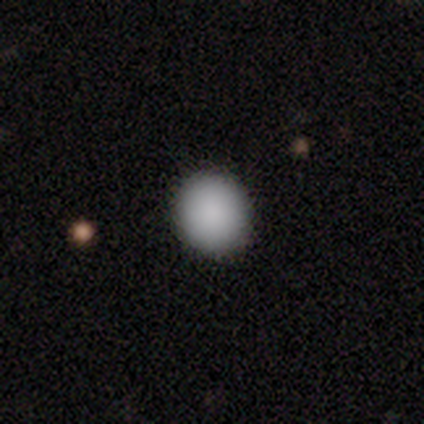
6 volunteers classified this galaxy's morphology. smooth-or-featured: smooth: 100% | featured or disk: 0% | star or artifact: 0%
  how-rounded: round: 100% | in between: 0% | cigar-shaped: 0%
  merging: none: 100% | minor disturbance: 0% | major disturbance: 0% | merger: 0%